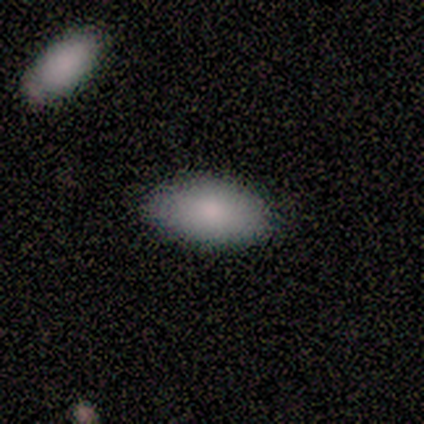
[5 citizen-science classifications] smooth-or-featured: smooth: 80% | star or artifact: 20% | featured or disk: 0%
  how-rounded: in between: 100% | round: 0% | cigar-shaped: 0%
  merging: none: 100% | minor disturbance: 0% | major disturbance: 0% | merger: 0%